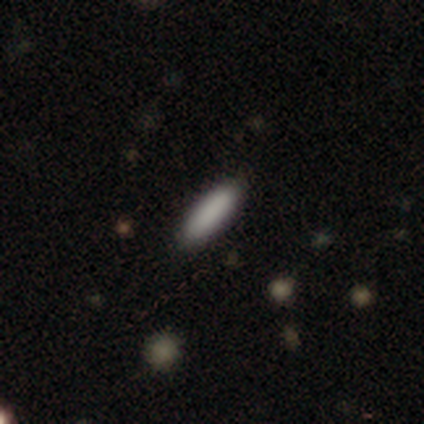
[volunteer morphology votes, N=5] Smooth or featured: smooth — 80% (star or artifact — 20%)
How rounded: in between — 50% (tied with cigar-shaped — 50%)
Merging: none — 75% (minor disturbance — 25%)